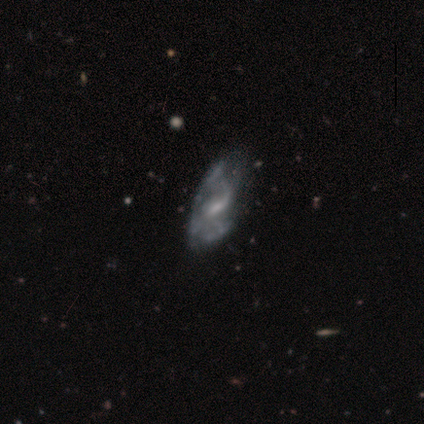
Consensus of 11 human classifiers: Smooth or featured?
  - featured or disk: 82% *
  - smooth: 18%
  - star or artifact: 0%
Edge-on disk?
  - no: 100% *
  - yes: 0%
Bar?
  - weak: 67% *
  - no: 33%
  - strong: 0%
Spiral arms?
  - yes: 78% *
  - no: 22%
Spiral winding?
  - loose: 57% *
  - medium: 29%
  - tight: 14%
Spiral arm count?
  - 1: 43% * (tied)
  - 2: 43% * (tied)
  - can't tell: 14%
  - 3: 0%
  - 4: 0%
  - more than 4: 0%
Bulge size?
  - small: 56% *
  - moderate: 33%
  - none: 11%
  - dominant: 0%
  - large: 0%
Merging?
  - minor disturbance: 55% *
  - none: 36%
  - merger: 9%
  - major disturbance: 0%